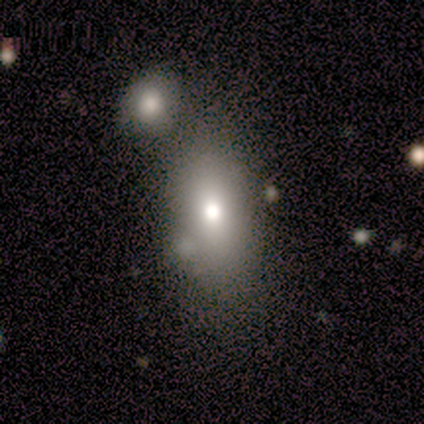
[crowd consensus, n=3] Volunteers were most divided on "bar" (2-way tie): weak: 50%, no: 50%, strong: 0%; "merging" (2-way tie): none: 50%, merger: 50%, minor disturbance: 0%, major disturbance: 0%. More confident: edge-on disk — no (100%); spiral arms — no (100%); bulge size — moderate (100%); smooth or featured — featured or disk (67%).